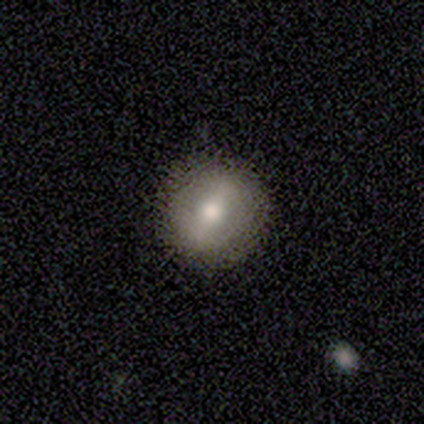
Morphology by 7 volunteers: smooth-or-featured: smooth: 43% | featured or disk: 29% | star or artifact: 29%
  how-rounded: round: 100% | in between: 0% | cigar-shaped: 0%
  merging: none: 80% | minor disturbance: 20% | major disturbance: 0% | merger: 0%